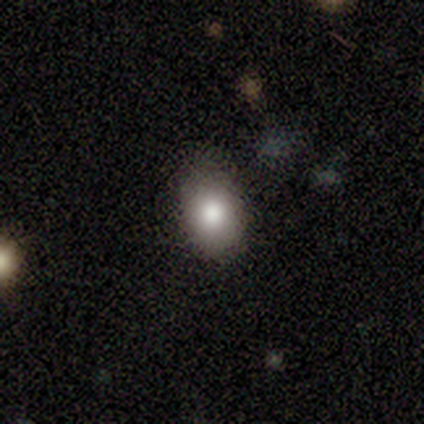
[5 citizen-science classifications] Overall: smooth (80%). How rounded: in between (100%). Merging: none (60%; minor disturbance 40%).